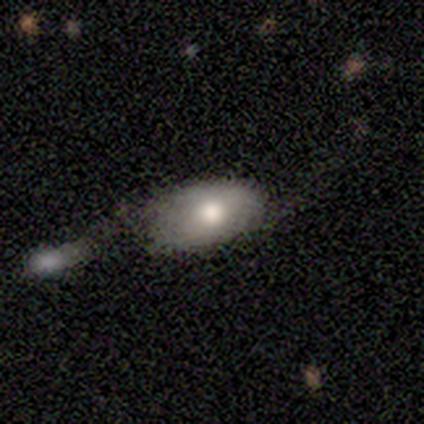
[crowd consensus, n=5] smooth-or-featured: smooth: 60% | featured or disk: 20% | star or artifact: 20%
  how-rounded: in between: 100% | round: 0% | cigar-shaped: 0%
  merging: minor disturbance: 50% | none: 25% | merger: 25% | major disturbance: 0%